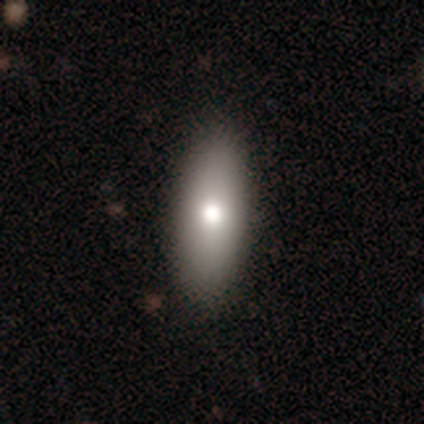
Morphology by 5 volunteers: Q: Smooth or featured?
A: smooth (100%)
Q: How rounded?
A: in between (60%); runner-up: cigar-shaped (40%)
Q: Merging?
A: none (60%); runner-up: minor disturbance (20%)